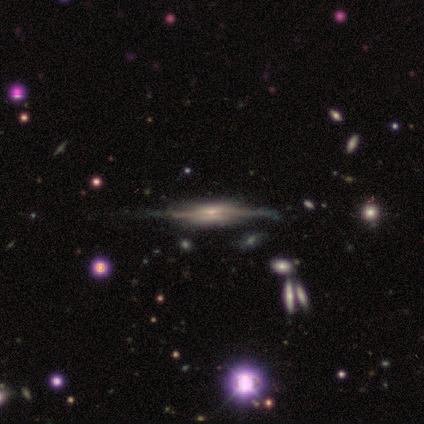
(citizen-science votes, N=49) This is clearly a featured or disk galaxy (86%). It is clearly viewed edge-on (93%). Edge-on bulge: likely boxy (69%). Merging: likely none (66%).